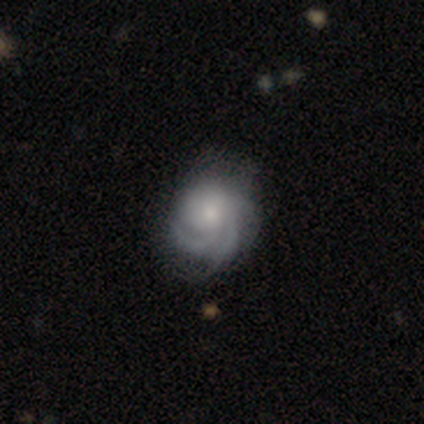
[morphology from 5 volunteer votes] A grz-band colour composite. It shows a featured or disk galaxy (100%) with no bar (80%), tight (60%) spiral arms (100%) and a moderate central bulge (60%). Merging: none (60%).